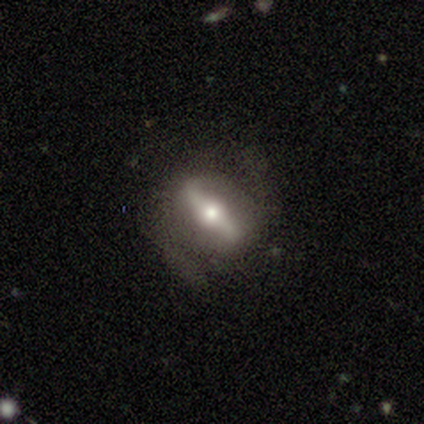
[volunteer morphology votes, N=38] type=featured or disk (74%); edge-on=no (71%); bar=strong (85%); spiral arms=yes (60%); winding=medium (50%); arm count=2 (75%); bulge=moderate (60%); merging=none (58%).